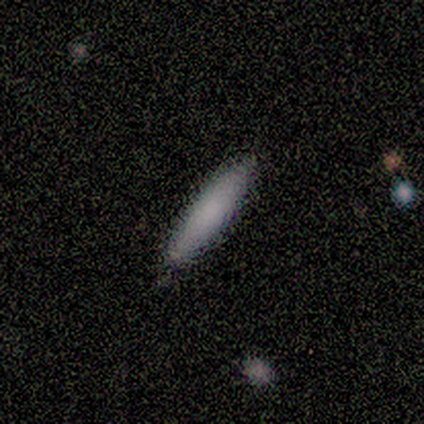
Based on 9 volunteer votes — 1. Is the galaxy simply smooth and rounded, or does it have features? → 89% smooth, 11% featured or disk, 0% star or artifact.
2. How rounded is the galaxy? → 100% cigar-shaped, 0% round, 0% in between.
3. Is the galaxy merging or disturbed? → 100% none, 0% minor disturbance, 0% major disturbance, 0% merger.